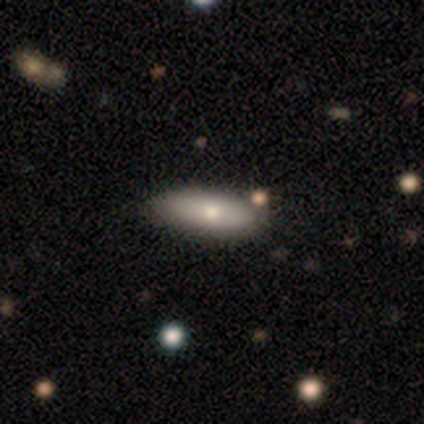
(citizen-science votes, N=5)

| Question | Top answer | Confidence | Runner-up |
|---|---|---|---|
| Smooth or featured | featured or disk | 60% | smooth (40%) |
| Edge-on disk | no | 100% | — |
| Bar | no | 100% | — |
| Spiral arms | no | 100% | — |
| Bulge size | moderate | 100% | — |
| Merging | none | 80% | major disturbance (20%) |